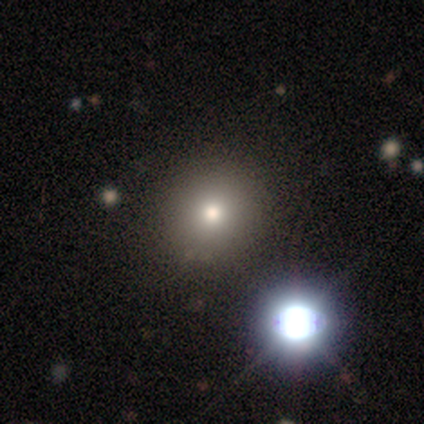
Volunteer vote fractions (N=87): Q: Smooth or featured?
A: smooth (64%); runner-up: star or artifact (23%)
Q: How rounded?
A: round (89%); runner-up: in between (11%)
Q: Merging?
A: none (84%); runner-up: minor disturbance (13%)